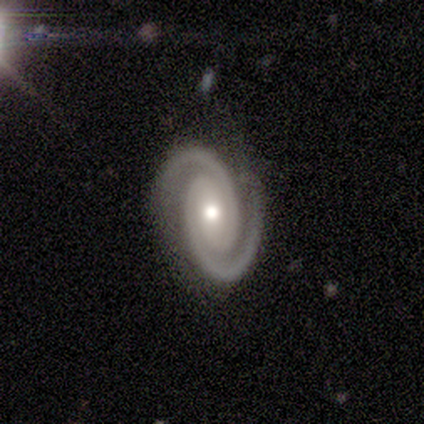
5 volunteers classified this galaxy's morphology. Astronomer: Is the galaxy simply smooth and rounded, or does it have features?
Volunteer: featured or disk — 100%.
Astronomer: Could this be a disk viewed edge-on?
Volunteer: no — 100%.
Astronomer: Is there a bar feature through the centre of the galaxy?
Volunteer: strong — 60%.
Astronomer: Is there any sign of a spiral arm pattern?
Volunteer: yes — 100%.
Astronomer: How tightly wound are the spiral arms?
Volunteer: tight — 80%.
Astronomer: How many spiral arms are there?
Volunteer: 2 — 100%.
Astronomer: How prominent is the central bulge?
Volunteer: moderate — 80%.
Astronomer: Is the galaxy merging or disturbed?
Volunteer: none — 100%.